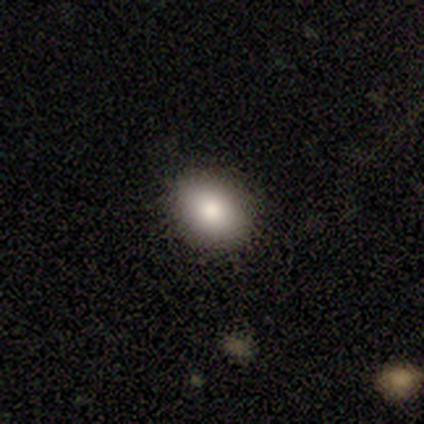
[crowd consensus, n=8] Smooth or featured?
  - smooth: 100% *
  - featured or disk: 0%
  - star or artifact: 0%
How rounded?
  - round: 50% * (tied)
  - in between: 50% * (tied)
  - cigar-shaped: 0%
Merging?
  - none: 88% *
  - minor disturbance: 12%
  - major disturbance: 0%
  - merger: 0%